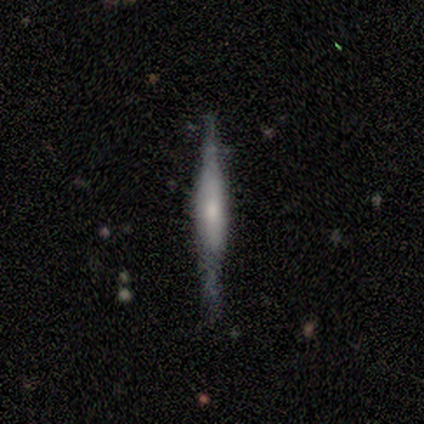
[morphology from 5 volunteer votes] Volunteers were most divided on "edge-on bulge": rounded: 60%, boxy: 40%, none: 0%. More confident: smooth or featured — featured or disk (100%); edge-on disk — yes (100%); merging — none (60%).